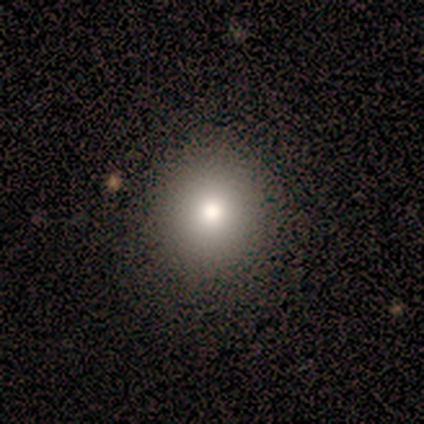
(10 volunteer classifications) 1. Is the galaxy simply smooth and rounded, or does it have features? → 100% smooth, 0% featured or disk, 0% star or artifact.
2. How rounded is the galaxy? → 90% round, 10% in between, 0% cigar-shaped.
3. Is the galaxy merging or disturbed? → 90% none, 10% minor disturbance, 0% major disturbance, 0% merger.